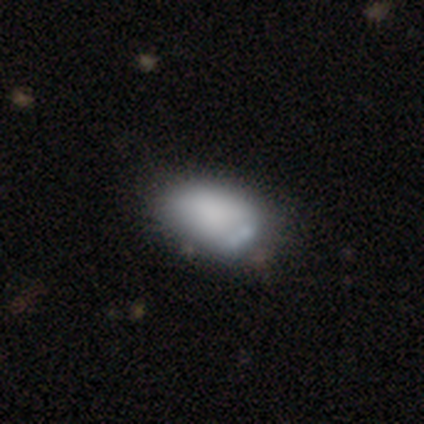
smooth 60%, featured or disk 20%, star or artifact 20%. Down the decision tree: how rounded — in between (100%); merging — minor disturbance (75%).